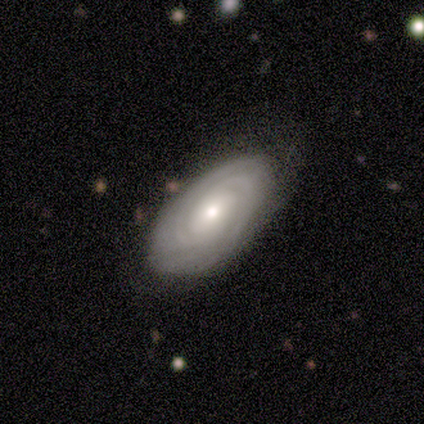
Smooth or featured?
  - featured or disk: 80% *
  - smooth: 20%
  - star or artifact: 0%
Edge-on disk?
  - no: 100% *
  - yes: 0%
Bar?
  - weak: 50% * (tied)
  - no: 50% * (tied)
  - strong: 0%
Spiral arms?
  - yes: 100% *
  - no: 0%
Spiral winding?
  - tight: 100% *
  - medium: 0%
  - loose: 0%
Spiral arm count?
  - 2: 25% * (tied)
  - 3: 25% * (tied)
  - 4: 25% * (tied)
  - can't tell: 25% * (tied)
  - 1: 0%
  - more than 4: 0%
Bulge size?
  - small: 75% *
  - none: 25%
  - dominant: 0%
  - large: 0%
  - moderate: 0%
Merging?
  - none: 80% *
  - major disturbance: 20%
  - minor disturbance: 0%
  - merger: 0%